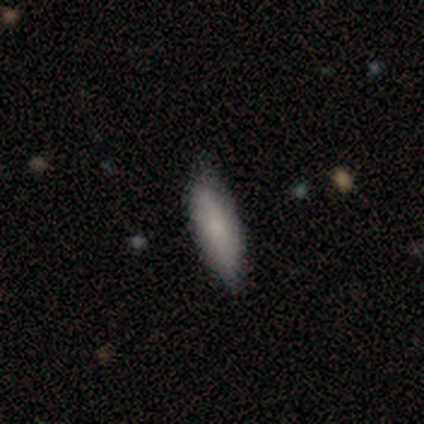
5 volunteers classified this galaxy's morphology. Overall: smooth (60%; featured or disk 40%). How rounded: in between (67%; cigar-shaped 33%). Merging: none (100%).